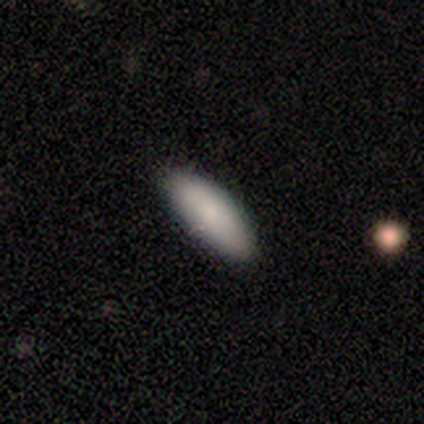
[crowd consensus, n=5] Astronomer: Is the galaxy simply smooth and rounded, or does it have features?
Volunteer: smooth — 80%.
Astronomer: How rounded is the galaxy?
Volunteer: in between — 100%.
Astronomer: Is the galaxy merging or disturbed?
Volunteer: none — 50%, tied with minor disturbance at 50%.